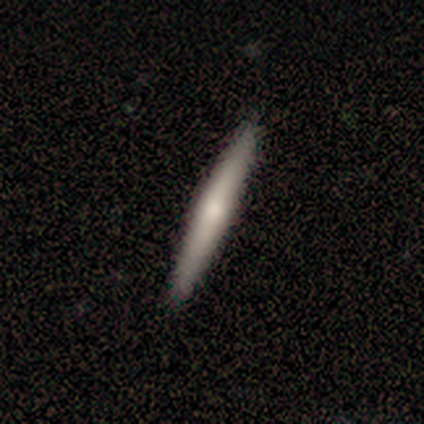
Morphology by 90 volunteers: smooth-or-featured: smooth: 63% | featured or disk: 34% | star or artifact: 2%
  how-rounded: cigar-shaped: 100% | round: 0% | in between: 0%
  merging: none: 92% | minor disturbance: 7% | major disturbance: 1% | merger: 0%